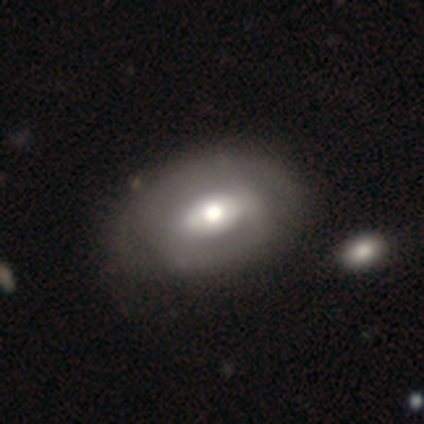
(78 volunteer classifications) featured or disk 58%, smooth 36%, star or artifact 6%. Down the decision tree: edge-on disk — no (82%); bar — no (49%); spiral arms — no (51%); bulge size — moderate (59%); merging — none (30%).